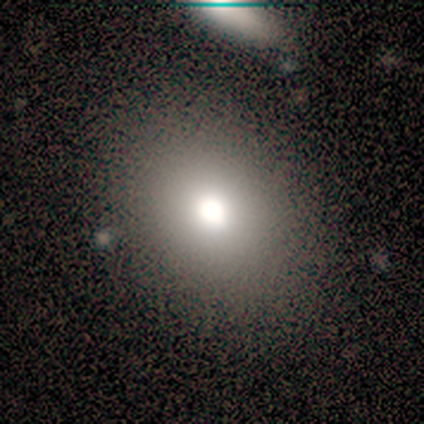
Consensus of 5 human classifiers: Smooth or featured? 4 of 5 (80%) said smooth. How rounded? 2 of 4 (50%, tied with in between) said round. Merging? 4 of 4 (100%) said none.